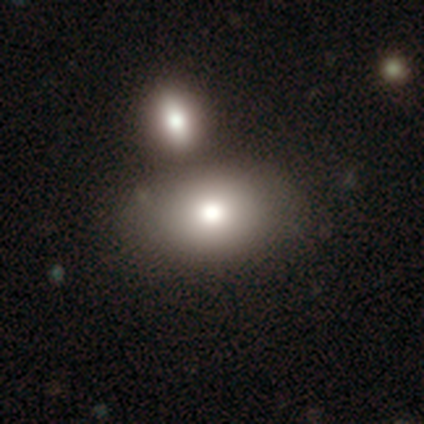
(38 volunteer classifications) smooth_or_featured: smooth (p=0.84) [alt: featured or disk p=0.11]
how_rounded: in between (p=0.59) [alt: round p=0.34]
merging: merger (p=0.72)